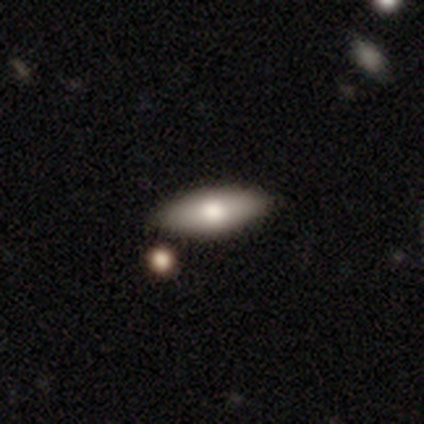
This is likely a smooth galaxy (77%). How rounded: clearly in between (82%). Merging: marginally none (41%).